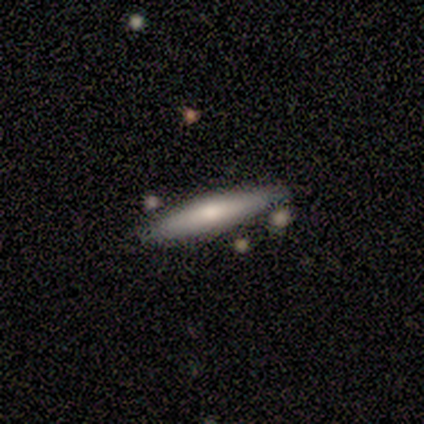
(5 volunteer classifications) smooth-or-featured: smooth: 80% | featured or disk: 20% | star or artifact: 0%
  how-rounded: cigar-shaped: 100% | round: 0% | in between: 0%
  merging: none: 60% | minor disturbance: 20% | merger: 20% | major disturbance: 0%